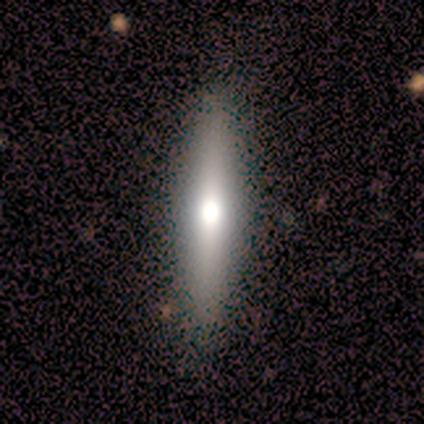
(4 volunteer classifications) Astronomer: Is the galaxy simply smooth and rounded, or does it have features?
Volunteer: featured or disk — 75%.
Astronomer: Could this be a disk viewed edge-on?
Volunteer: yes — 100%.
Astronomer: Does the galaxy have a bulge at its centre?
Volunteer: rounded — 100%.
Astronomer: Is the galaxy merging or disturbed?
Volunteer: none — 100%.